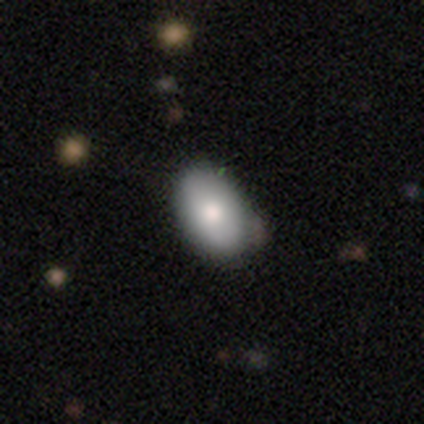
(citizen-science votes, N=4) smooth-or-featured: featured or disk: 50% | smooth: 25% | star or artifact: 25%
  disk-edge-on: no: 100% | yes: 0%
    bar: no: 100% | strong: 0% | weak: 0%
    has-spiral-arms: no: 100% | yes: 0%
    bulge-size: moderate: 100% | dominant: 0% | large: 0% | small: 0% | none: 0%
  merging: none: 67% | minor disturbance: 33% | major disturbance: 0% | merger: 0%